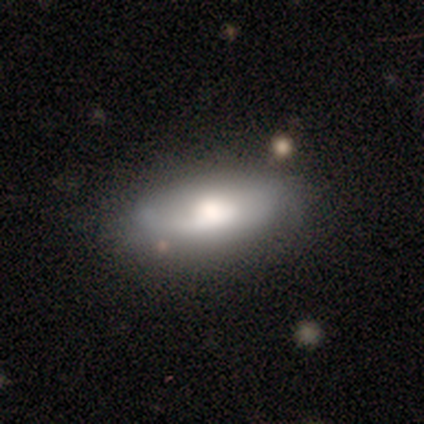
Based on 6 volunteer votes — smooth-or-featured: smooth: 67% | featured or disk: 17% | star or artifact: 17%
  how-rounded: in between: 100% | round: 0% | cigar-shaped: 0%
  merging: minor disturbance: 40% (tied) | major disturbance: 40% (tied) | none: 20% | merger: 0%